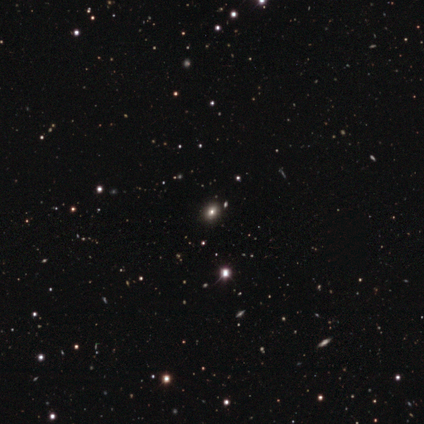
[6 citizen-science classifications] A smooth galaxy with no disk features (67%) that is round (75%). Merging: none (100%).